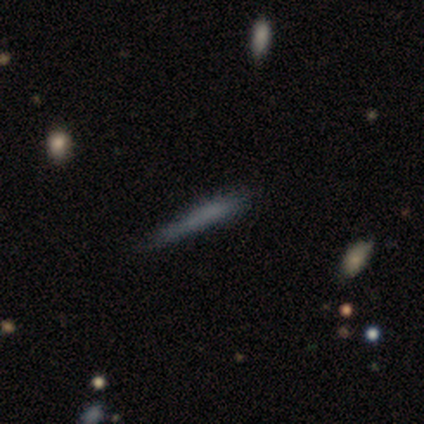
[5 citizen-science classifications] Morphology: type=smooth (80%); roundness=cigar-shaped (100%); merging=minor disturbance (80%).